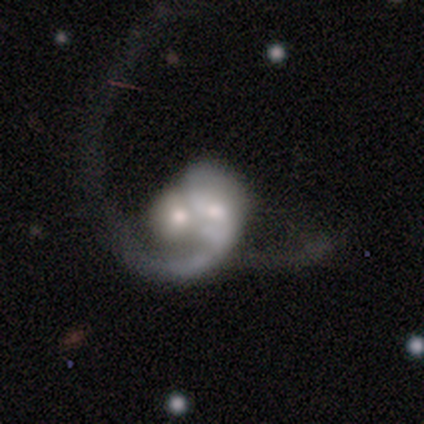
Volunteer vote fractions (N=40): Smooth or featured? 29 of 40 (72%) said featured or disk. Edge-on disk? 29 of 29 (100%) said no. Bar? 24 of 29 (83%) said no. Spiral arms? 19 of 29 (66%) said yes. Spiral winding? 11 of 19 (58%) said loose. Spiral arm count? 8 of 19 (42%, tied with 2) said 1. Bulge size? 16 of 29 (55%) said moderate. Merging? 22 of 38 (58%) said merger.